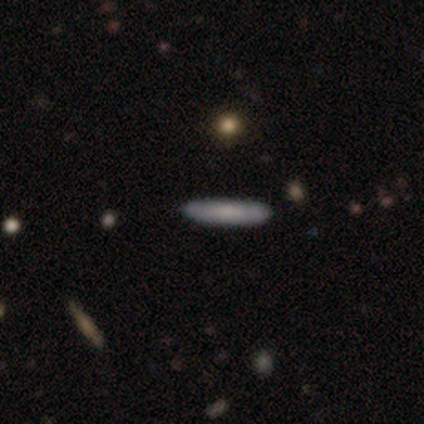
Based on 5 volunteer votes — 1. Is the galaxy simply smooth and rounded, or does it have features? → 60% smooth, 40% featured or disk, 0% star or artifact.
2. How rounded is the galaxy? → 100% cigar-shaped, 0% round, 0% in between.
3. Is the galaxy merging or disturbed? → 60% none, 40% minor disturbance, 0% major disturbance, 0% merger.